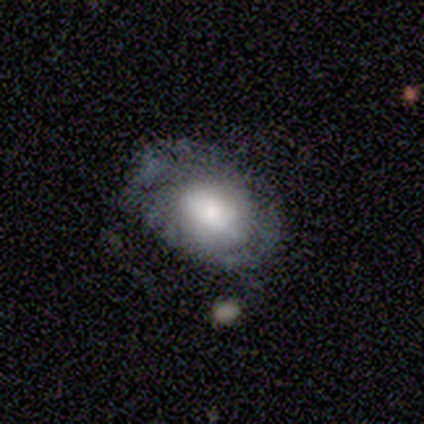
Smooth or featured? smooth (75%)
How rounded? in between (67%)
Merging? none (100%)